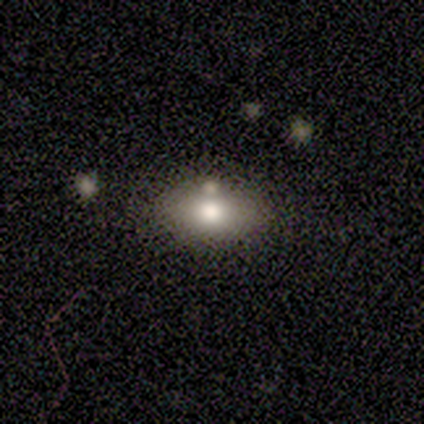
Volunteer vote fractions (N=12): Smooth or featured? 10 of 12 (83%) said smooth. How rounded? 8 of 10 (80%) said in between. Merging? 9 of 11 (82%) said none.